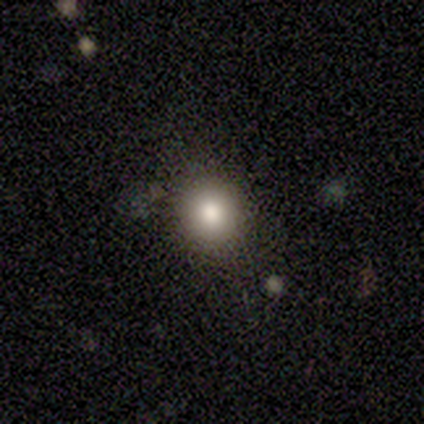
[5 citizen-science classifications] smooth-or-featured: smooth: 100% | featured or disk: 0% | star or artifact: 0%
  how-rounded: round: 100% | in between: 0% | cigar-shaped: 0%
  merging: none: 100% | minor disturbance: 0% | major disturbance: 0% | merger: 0%